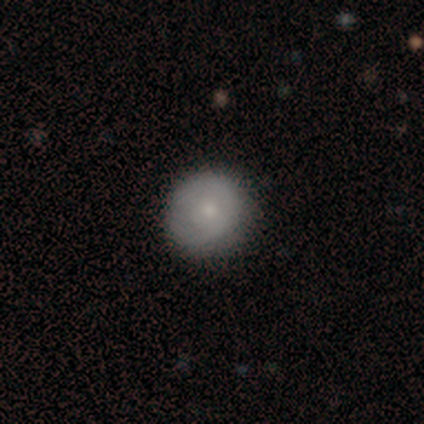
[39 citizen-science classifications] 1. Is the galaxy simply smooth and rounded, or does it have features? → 79% smooth, 18% featured or disk, 3% star or artifact.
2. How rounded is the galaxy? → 87% round, 13% in between, 0% cigar-shaped.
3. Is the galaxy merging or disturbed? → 63% none, 16% minor disturbance, 3% major disturbance, 0% merger.